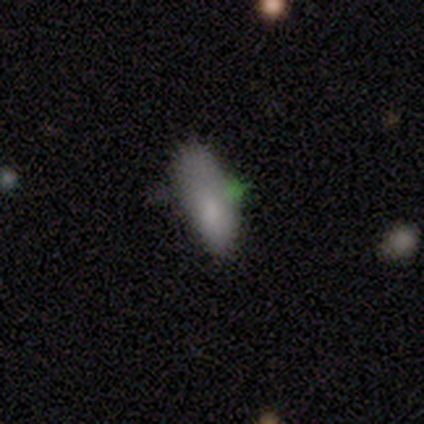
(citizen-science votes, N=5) A smooth galaxy with no disk features (80%) that is in between round and cigar-shaped (75%).

Vote fractions:
- Smooth or featured? smooth: 80% / featured or disk: 20% / star or artifact: 0%
- How rounded? in between: 75% / cigar-shaped: 25% / round: 0%
- Merging? none: 40% (tied) / minor disturbance: 40% (tied) / merger: 20% / major disturbance: 0%